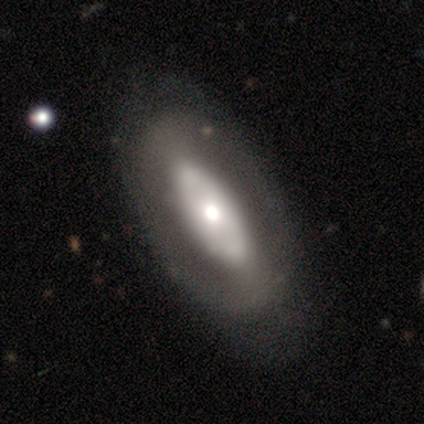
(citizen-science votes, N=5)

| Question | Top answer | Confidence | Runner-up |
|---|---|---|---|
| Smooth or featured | featured or disk | 60% | smooth (20%) |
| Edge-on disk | no | 100% | — |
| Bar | no | 67% | strong (33%) |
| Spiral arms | no | 100% | — |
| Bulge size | large | 33% | tied: moderate (33%), small (33%) |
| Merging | minor disturbance | 75% | none (25%) |